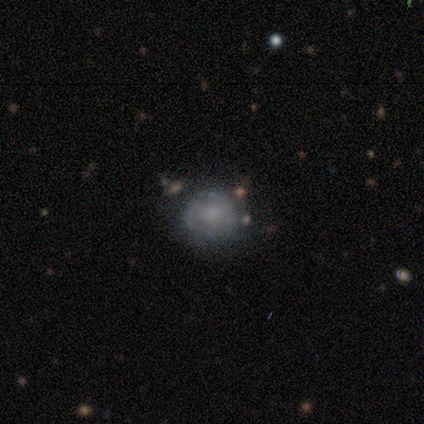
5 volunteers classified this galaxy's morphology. A smooth galaxy with no disk features (40%, tied with featured or disk) that is round (100%). Merging: none (75%).